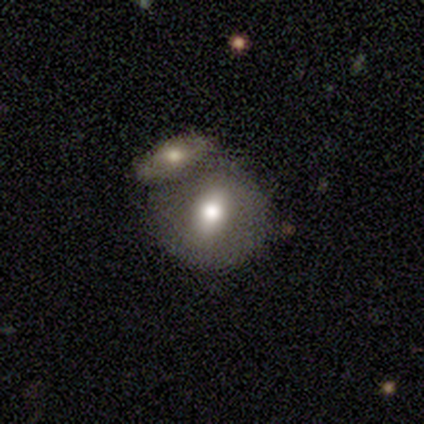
Volunteers were most divided on "bulge size" (4-way tie): large: 25%, moderate: 25%, small: 25%, none: 25%, dominant: 0%. More confident: edge-on disk — no (100%); spiral arms — no (100%); smooth or featured — featured or disk (80%); bar — no (75%); merging — merger (60%).